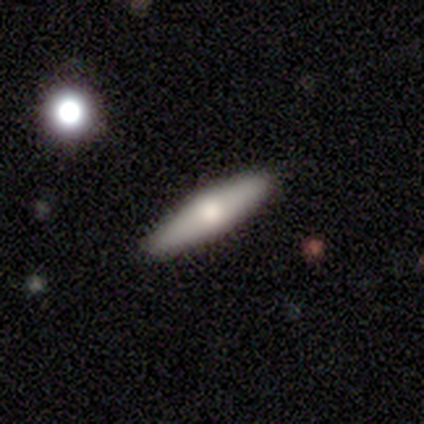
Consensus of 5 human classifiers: A featured or disk galaxy (60%) with no bar (100%), no spiral arms (100%) and a large central bulge (33%, tied with moderate and small). Merging: none (100%).